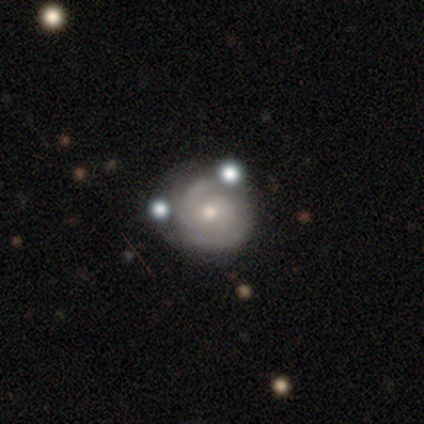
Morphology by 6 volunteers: smooth_or_featured: featured or disk (p=1.00)
disk_edge_on: no (p=1.00)
bar: no (p=0.83) [alt: weak p=0.17]
has_spiral_arms: yes (p=1.00)
spiral_winding: tight (p=0.83) [alt: medium p=0.17]
spiral_arm_count: 2 (p=0.33) [tied with: 3 p=0.33, can't tell p=0.33]
bulge_size: moderate (p=0.50) [tied with: small p=0.50]
merging: none (p=0.50) [tied with: minor disturbance p=0.50]